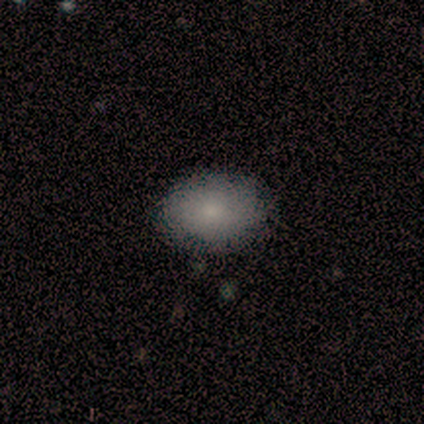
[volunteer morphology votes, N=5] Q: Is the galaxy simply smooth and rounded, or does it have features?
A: smooth — 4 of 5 (80%).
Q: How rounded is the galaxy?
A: in between — 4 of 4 (100%).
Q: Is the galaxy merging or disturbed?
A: none — 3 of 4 (75%).